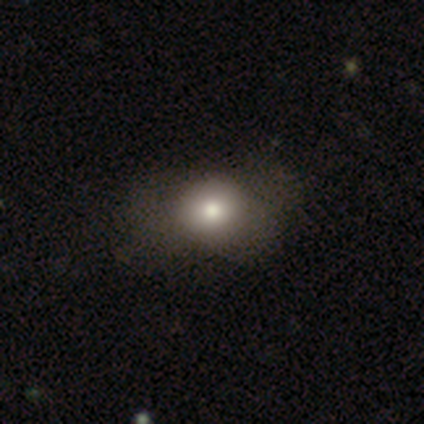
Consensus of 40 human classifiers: Smooth or featured: smooth — 78% (featured or disk — 18%)
How rounded: round — 68% (in between — 32%)
Merging: none — 58% (minor disturbance — 21%)